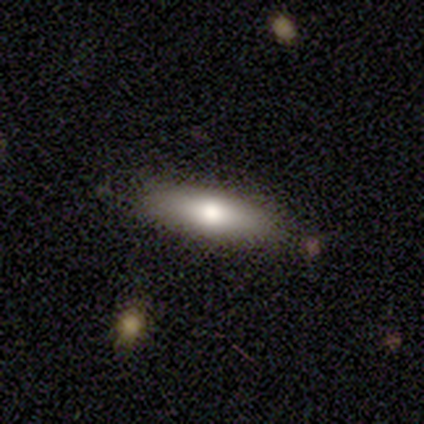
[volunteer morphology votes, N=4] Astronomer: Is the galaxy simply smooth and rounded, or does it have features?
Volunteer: smooth — 50%, tied with featured or disk at 50%.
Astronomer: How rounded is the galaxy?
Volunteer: cigar-shaped — 100%.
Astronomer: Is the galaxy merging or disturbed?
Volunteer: none — 100%.